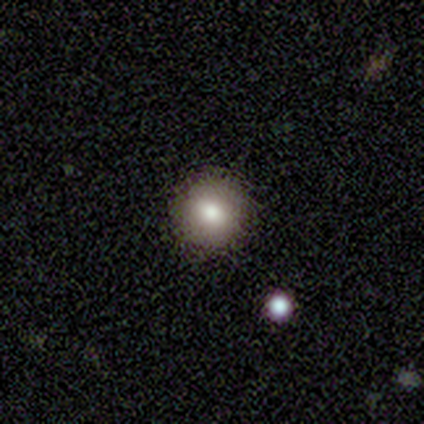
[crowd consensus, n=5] Morphology: type=smooth (80%); roundness=round (75%); merging=none (100%).